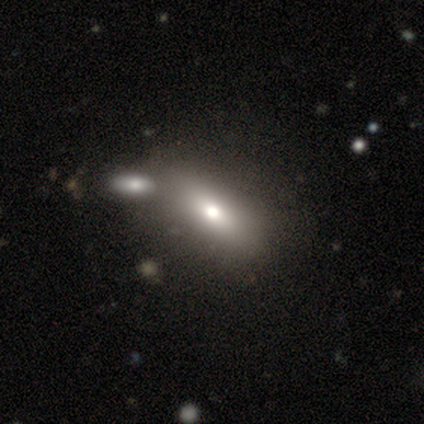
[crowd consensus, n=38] Volunteers were most divided on "merging": merger: 37%, none: 34%, minor disturbance: 9%, major disturbance: 9%. More confident: smooth or featured — smooth (66%); how rounded — in between (64%).